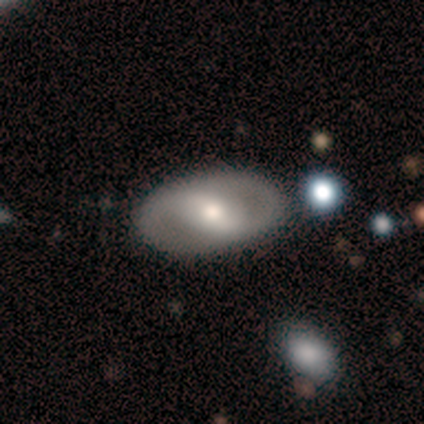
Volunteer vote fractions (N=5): featured or disk 60%, smooth 40%, star or artifact 0%. Down the decision tree: edge-on disk — no (100%); bar — weak (67%); spiral arms — no (67%); bulge size — moderate (100%); merging — none (60%).